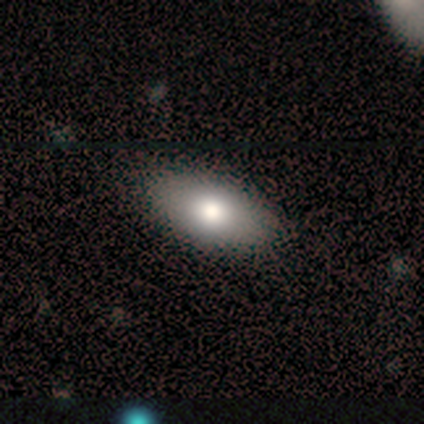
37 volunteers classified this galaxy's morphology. smooth 78%, featured or disk 16%, star or artifact 5%. Down the decision tree: how rounded — in between (100%); merging — none (89%).